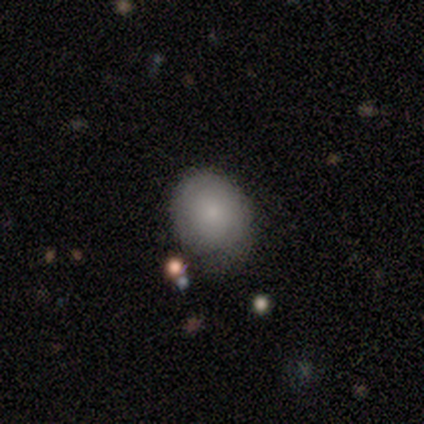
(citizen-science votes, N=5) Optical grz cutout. It shows a smooth galaxy with no disk features (100%) that is round (80%). Merging: none (80%).